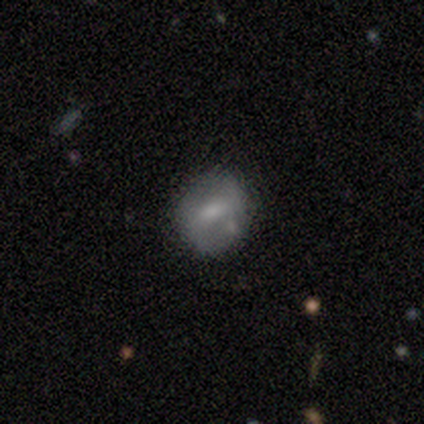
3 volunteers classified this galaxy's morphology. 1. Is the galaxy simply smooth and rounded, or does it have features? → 33% smooth (tied), 33% featured or disk (tied), 33% star or artifact (tied).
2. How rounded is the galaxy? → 100% round, 0% in between, 0% cigar-shaped.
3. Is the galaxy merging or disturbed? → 100% none, 0% minor disturbance, 0% major disturbance, 0% merger.